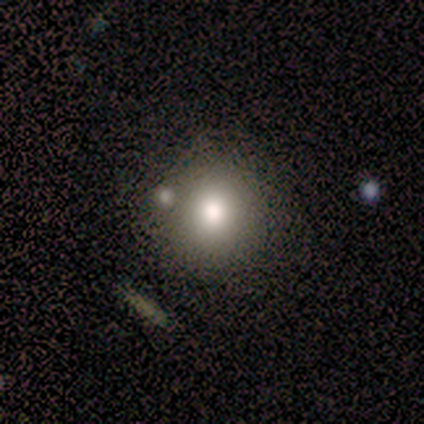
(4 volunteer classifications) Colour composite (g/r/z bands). It shows a smooth galaxy with no disk features (100%) that is round (75%). Merging: none (75%).